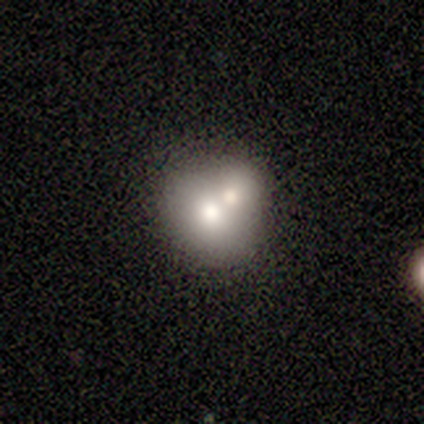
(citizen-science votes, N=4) Morphology: type=smooth (75%); roundness=in between (67%); merging=none (50%).